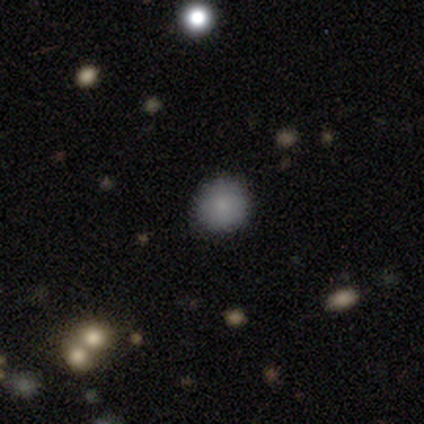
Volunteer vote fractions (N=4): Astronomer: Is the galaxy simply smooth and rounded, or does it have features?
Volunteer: smooth — 75%.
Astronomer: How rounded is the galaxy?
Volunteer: round — 100%.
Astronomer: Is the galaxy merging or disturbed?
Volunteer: none — 100%.